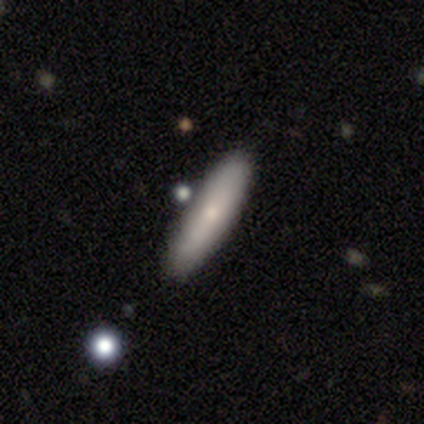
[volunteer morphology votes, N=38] type=smooth (71%); roundness=cigar-shaped (74%); merging=none (79%).